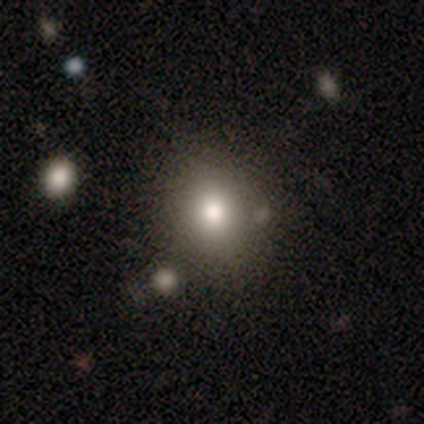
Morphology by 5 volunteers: Smooth or featured?
  - smooth: 60% *
  - featured or disk: 40%
  - star or artifact: 0%
How rounded?
  - in between: 100% *
  - round: 0%
  - cigar-shaped: 0%
Merging?
  - none: 60% *
  - minor disturbance: 20%
  - merger: 20%
  - major disturbance: 0%